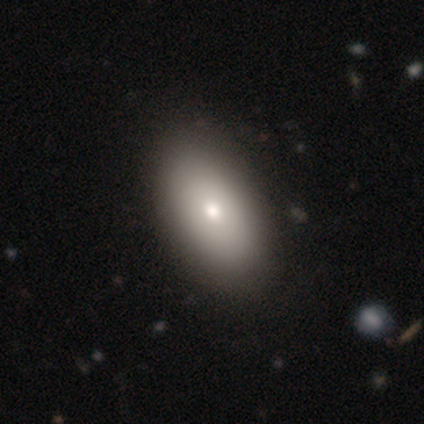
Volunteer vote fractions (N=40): smooth_or_featured: smooth (p=0.82) [alt: featured or disk p=0.12]
how_rounded: in between (p=0.88) [alt: round p=0.09]
merging: none (p=0.55) [alt: merger p=0.08]